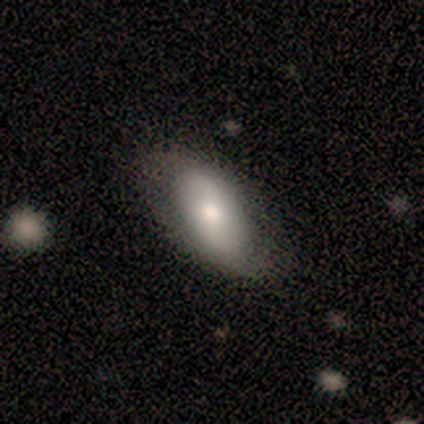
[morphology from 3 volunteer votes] smooth 67%, featured or disk 33%, star or artifact 0%. Down the decision tree: how rounded — in between (100%); merging — none (67%).